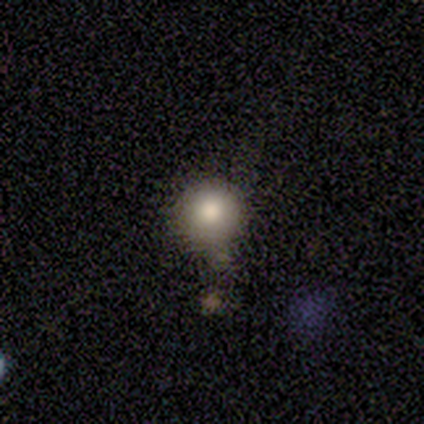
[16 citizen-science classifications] This is clearly a smooth galaxy (81%). How rounded: clearly round (100%). Merging: likely none (67%).